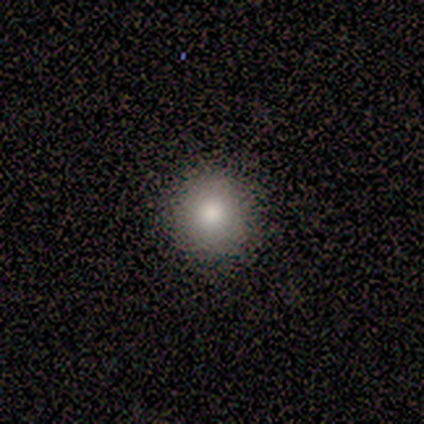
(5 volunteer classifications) Smooth or featured: smooth — 100%
How rounded: round — 100%
Merging: none — 100%